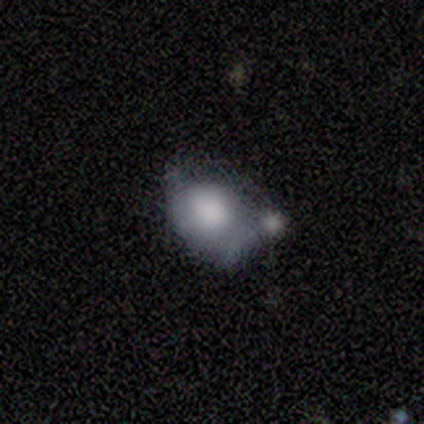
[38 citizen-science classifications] Smooth or featured? 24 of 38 (63%) said smooth. How rounded? 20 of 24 (83%) said in between. Merging? 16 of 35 (46%) said merger.